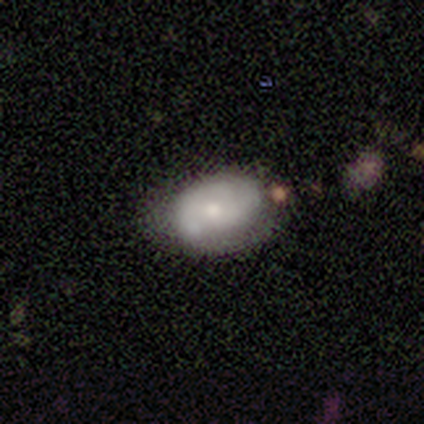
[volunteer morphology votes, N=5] featured or disk 60%, smooth 40%, star or artifact 0%. Down the decision tree: edge-on disk — no (100%); bar — no (67%); spiral arms — yes (100%); spiral arm count — 2 (33%, tied with 3 and can't tell); spiral winding — tight (67%); bulge size — moderate (67%); merging — none (40%).